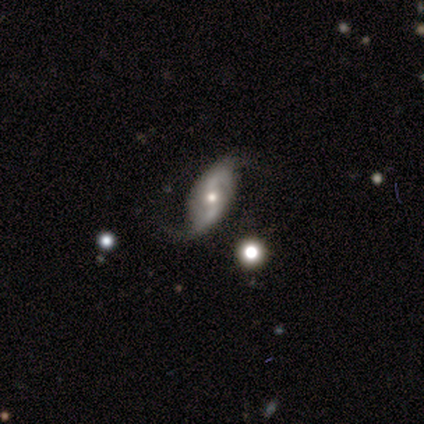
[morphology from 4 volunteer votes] Smooth or featured: featured or disk — 100%
Edge-on disk: no — 75% (yes — 25%)
Bar: no — 67% (weak — 33%)
Spiral arms: yes — 100%
Spiral winding: loose — 67% (medium — 33%)
Spiral arm count: 2 — 100%
Bulge size: moderate — 67% (small — 33%)
Merging: none — 50% (minor disturbance — 25%)